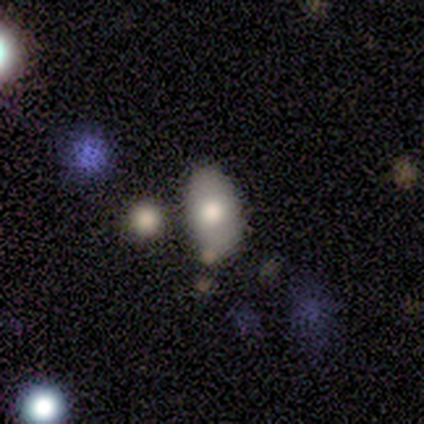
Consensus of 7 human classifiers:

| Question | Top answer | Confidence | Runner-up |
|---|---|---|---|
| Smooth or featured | smooth | 57% | featured or disk (43%) |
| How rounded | in between | 100% | — |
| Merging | none | 86% | minor disturbance (14%) |